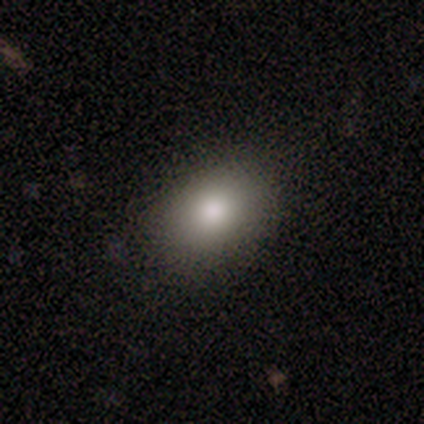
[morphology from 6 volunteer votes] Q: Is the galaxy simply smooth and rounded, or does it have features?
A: smooth — 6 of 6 (100%).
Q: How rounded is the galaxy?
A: in between — 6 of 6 (100%).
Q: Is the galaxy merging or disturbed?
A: none — 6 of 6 (100%).